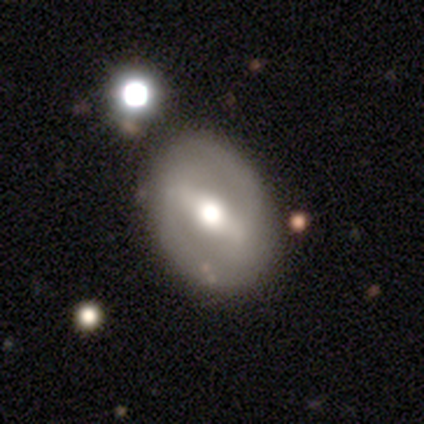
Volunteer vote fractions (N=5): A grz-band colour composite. It shows a featured or disk galaxy (60%) with a strong bar (100%), 2 (100%) medium (100%) spiral arms (100%) and a moderate central bulge (100%). Merging: none (100%).